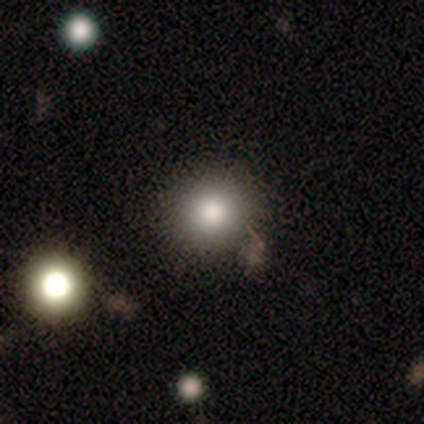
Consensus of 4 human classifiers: This is clearly a smooth galaxy (100%). How rounded: possibly round (50%, tied with in between). Merging: clearly none (100%).